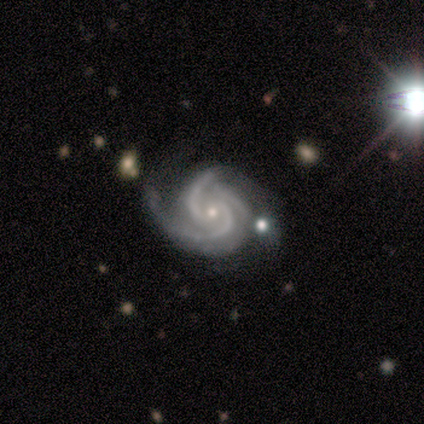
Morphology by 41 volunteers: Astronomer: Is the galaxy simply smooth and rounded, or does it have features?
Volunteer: featured or disk — 98%.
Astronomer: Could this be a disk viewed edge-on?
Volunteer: no — 100%.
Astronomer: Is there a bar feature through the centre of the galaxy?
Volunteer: no — 78%.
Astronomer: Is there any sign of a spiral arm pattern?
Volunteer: yes — 100%.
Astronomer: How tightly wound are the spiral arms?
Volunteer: medium — 65%.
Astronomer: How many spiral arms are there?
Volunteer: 3 — 70%.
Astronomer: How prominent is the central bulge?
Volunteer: small — 72%.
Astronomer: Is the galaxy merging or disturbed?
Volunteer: none — 37%, tied with minor disturbance at 37%.